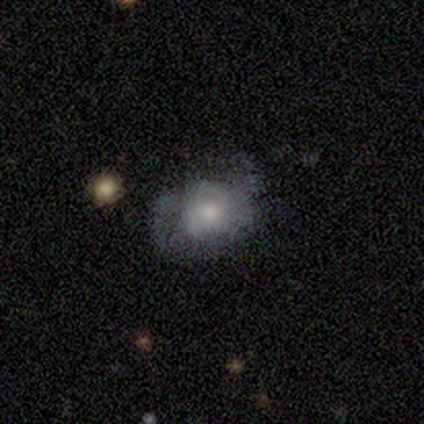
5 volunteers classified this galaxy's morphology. type=featured or disk (40%, tied with star or artifact); edge-on=no (100%); bar=no (100%); spiral arms=yes (100%); winding=tight (50%, tied with loose); arm count=2 (50%, tied with can't tell); bulge=moderate (100%); merging=none (100%).